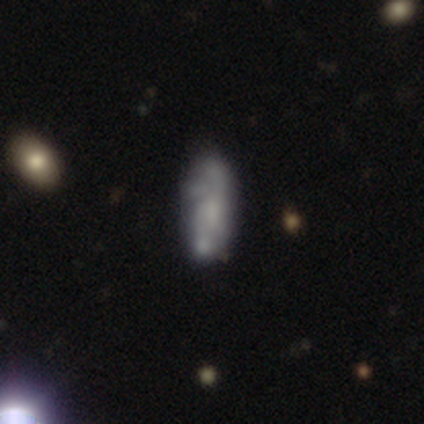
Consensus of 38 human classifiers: Morphology: type=smooth (47%, tied with featured or disk); roundness=in between (72%); merging=none (67%).